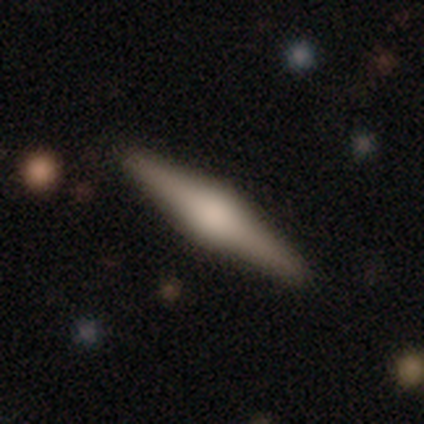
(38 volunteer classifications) A featured or disk galaxy (82%) viewed edge-on (94%) with a rounded central bulge (90%). Merging: none (95%).